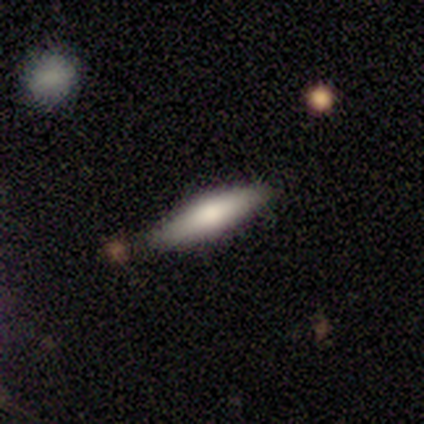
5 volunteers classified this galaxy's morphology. Smooth or featured?
  - smooth: 80% *
  - featured or disk: 20%
  - star or artifact: 0%
How rounded?
  - in between: 50% * (tied)
  - cigar-shaped: 50% * (tied)
  - round: 0%
Merging?
  - none: 100% *
  - minor disturbance: 0%
  - major disturbance: 0%
  - merger: 0%